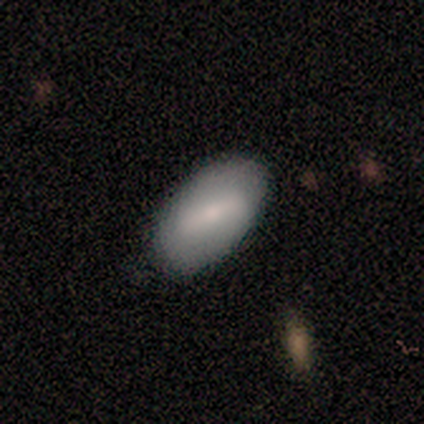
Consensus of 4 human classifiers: This appears to be a smooth galaxy with no disk features (75%) that is in between round and cigar-shaped (100%). Merging: none (100%).